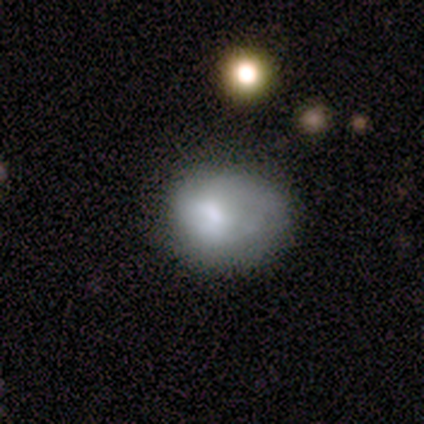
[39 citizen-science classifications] A smooth galaxy with no disk features (82%) that is in between round and cigar-shaped (56%).

Vote fractions:
- Smooth or featured? smooth: 82% / featured or disk: 10% / star or artifact: 8%
- How rounded? in between: 56% / round: 44% / cigar-shaped: 0%
- Merging? minor disturbance: 47% / none: 39% / major disturbance: 8% / merger: 6%